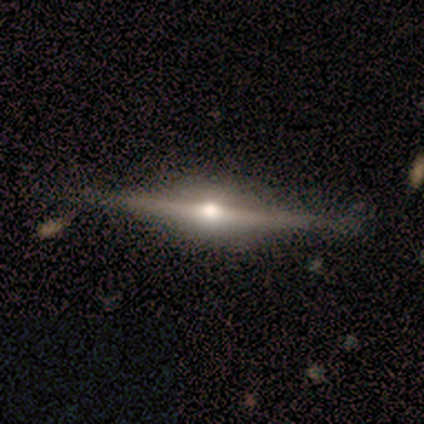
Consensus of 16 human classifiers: Smooth or featured? 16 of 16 (100%) said featured or disk. Edge-on disk? 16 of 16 (100%) said yes. Edge-on bulge? 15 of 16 (94%) said rounded. Merging? 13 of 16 (81%) said none.